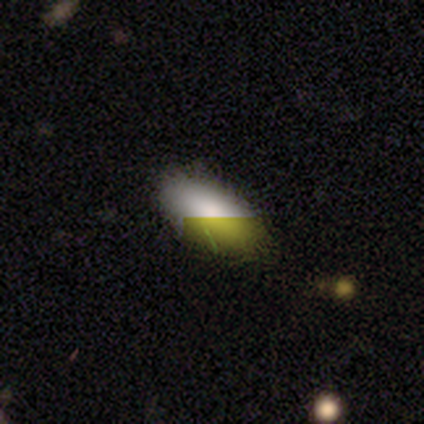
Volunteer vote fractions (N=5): smooth-or-featured: smooth: 60% | featured or disk: 20% | star or artifact: 20%
  how-rounded: in between: 100% | round: 0% | cigar-shaped: 0%
  merging: none: 100% | minor disturbance: 0% | major disturbance: 0% | merger: 0%